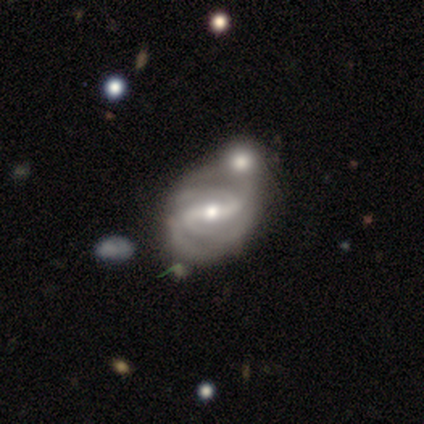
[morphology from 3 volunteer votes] smooth-or-featured: featured or disk: 67% | smooth: 33% | star or artifact: 0%
  disk-edge-on: no: 100% | yes: 0%
    bar: strong: 50% (tied) | weak: 50% (tied) | no: 0%
    has-spiral-arms: yes: 100% | no: 0%
      spiral-winding: loose: 100% | tight: 0% | medium: 0%
      spiral-arm-count: 2: 100% | 1: 0% | 3: 0% | 4: 0% | more than 4: 0% | can't tell: 0%
    bulge-size: moderate: 50% (tied) | small: 50% (tied) | dominant: 0% | large: 0% | none: 0%
  merging: none: 33% (tied) | minor disturbance: 33% (tied) | merger: 33% (tied) | major disturbance: 0%